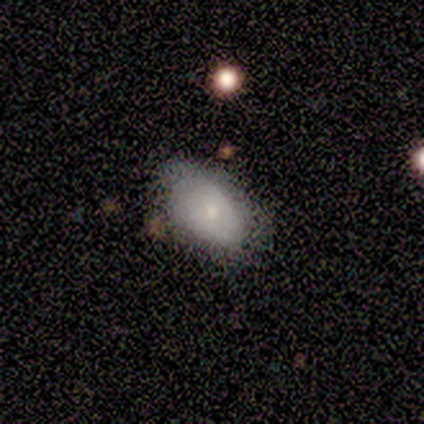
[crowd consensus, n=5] smooth-or-featured: smooth: 60% | featured or disk: 20% | star or artifact: 20%
  how-rounded: in between: 100% | round: 0% | cigar-shaped: 0%
  merging: none: 50% (tied) | minor disturbance: 50% (tied) | major disturbance: 0% | merger: 0%